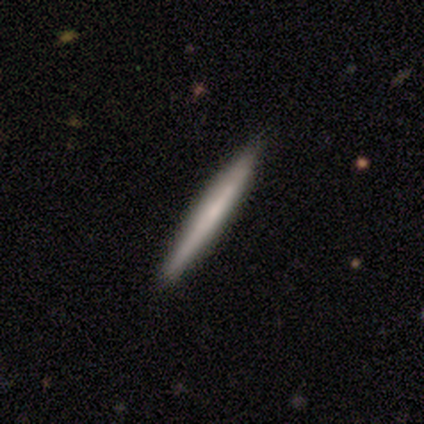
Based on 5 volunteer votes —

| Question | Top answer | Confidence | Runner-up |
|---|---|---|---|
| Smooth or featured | smooth | 80% | featured or disk (20%) |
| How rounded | cigar-shaped | 100% | — |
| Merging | none | 100% | — |